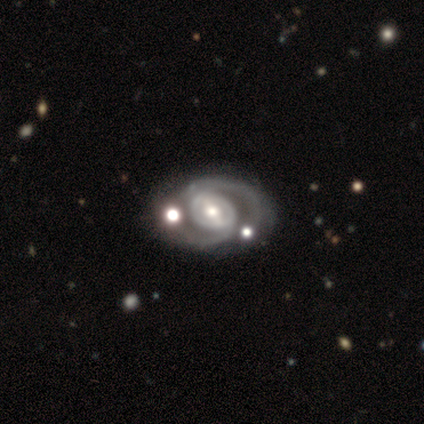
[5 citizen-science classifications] A featured or disk galaxy (100%) with a strong bar (40%, tied with weak), 2 (100%) medium (75%) spiral arms (80%) and a moderate central bulge (60%).

Vote fractions:
- Smooth or featured? featured or disk: 100% / smooth: 0% / star or artifact: 0%
- Edge-on disk? no: 100% / yes: 0%
- Bar? strong: 40% (tied) / weak: 40% (tied) / no: 20%
- Spiral arms? yes: 80% / no: 20%
- Spiral winding? medium: 75% / tight: 25% / loose: 0%
- Spiral arm count? 2: 100% / 1: 0% / 3: 0% / 4: 0% / more than 4: 0% / can't tell: 0%
- Bulge size? moderate: 60% / small: 40% / dominant: 0% / large: 0% / none: 0%
- Merging? none: 80% / major disturbance: 20% / minor disturbance: 0% / merger: 0%